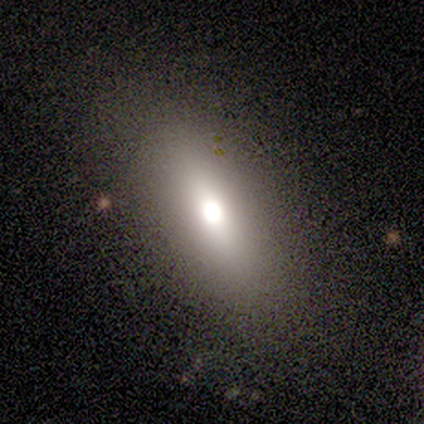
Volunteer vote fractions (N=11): A smooth galaxy with no disk features (64%) that is in between round and cigar-shaped (57%).

Vote fractions:
- Smooth or featured? smooth: 64% / featured or disk: 18% / star or artifact: 18%
- How rounded? in between: 57% / cigar-shaped: 29% / round: 14%
- Merging? none: 89% / minor disturbance: 11% / major disturbance: 0% / merger: 0%